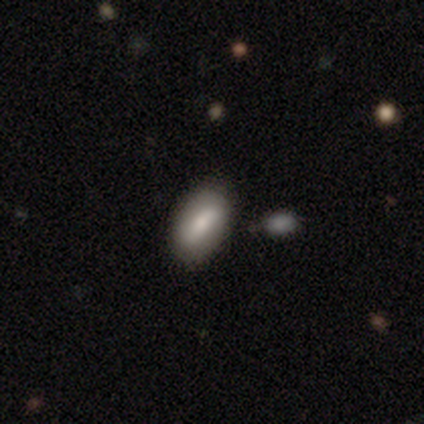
featured or disk 60%, smooth 20%, star or artifact 20%. Down the decision tree: edge-on disk — no (100%); bar — strong (67%); spiral arms — yes (67%); spiral arm count — 2 (100%); spiral winding — tight (50%, tied with loose); bulge size — moderate (67%); merging — none (100%).